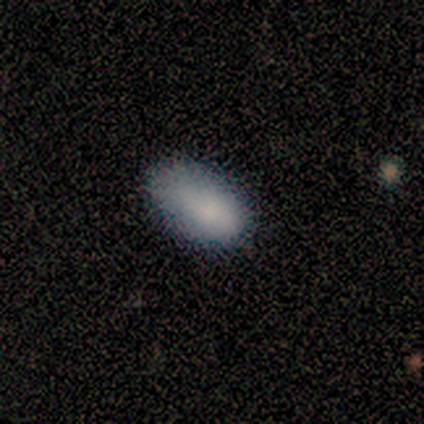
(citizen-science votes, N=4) A smooth galaxy with no disk features (100%) that is in between round and cigar-shaped (100%).

Vote fractions:
- Smooth or featured? smooth: 100% / featured or disk: 0% / star or artifact: 0%
- How rounded? in between: 100% / round: 0% / cigar-shaped: 0%
- Merging? none: 50% (tied) / minor disturbance: 50% (tied) / major disturbance: 0% / merger: 0%